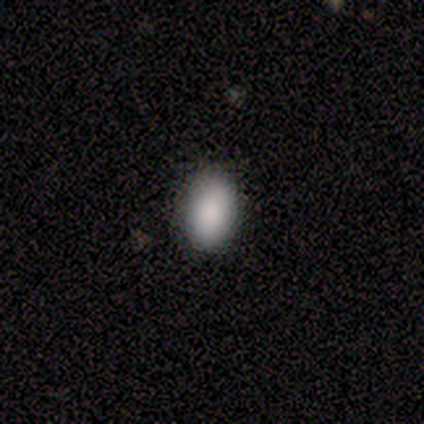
Volunteers were most divided on "how rounded": in between: 75%, round: 25%, cigar-shaped: 0%. More confident: smooth or featured — smooth (100%); merging — none (75%).